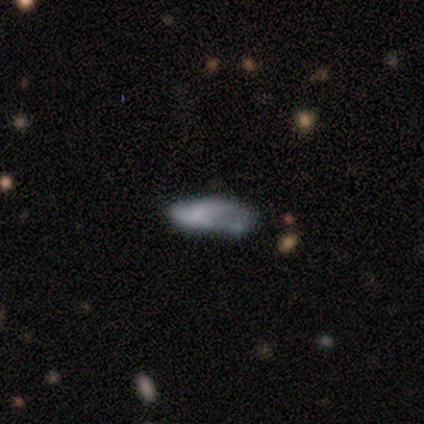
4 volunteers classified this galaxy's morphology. Smooth or featured: star or artifact — 50% (smooth — 25%)